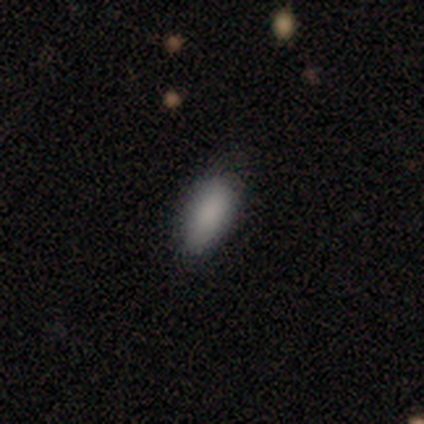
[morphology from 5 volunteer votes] This appears to be a star or artifact, not a galaxy (60%).